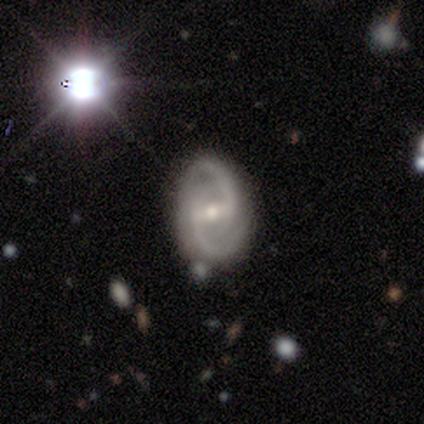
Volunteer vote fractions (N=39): featured or disk 95%, smooth 3%, star or artifact 3%. Down the decision tree: edge-on disk — no (97%); bar — weak (53%); spiral arms — yes (97%); spiral arm count — 2 (97%); spiral winding — medium (37%); bulge size — small (56%); merging — none (84%).